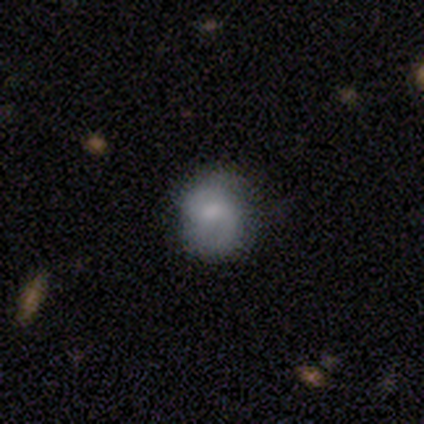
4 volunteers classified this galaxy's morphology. Smooth or featured? 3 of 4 (75%) said featured or disk. Edge-on disk? 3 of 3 (100%) said no. Bar? 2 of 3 (67%) said weak. Spiral arms? 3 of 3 (100%) said yes. Spiral winding? 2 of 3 (67%) said loose. Spiral arm count? 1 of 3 (33%, tied with 2 and 3) said 1. Bulge size? 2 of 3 (67%) said moderate. Merging? 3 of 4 (75%) said none.